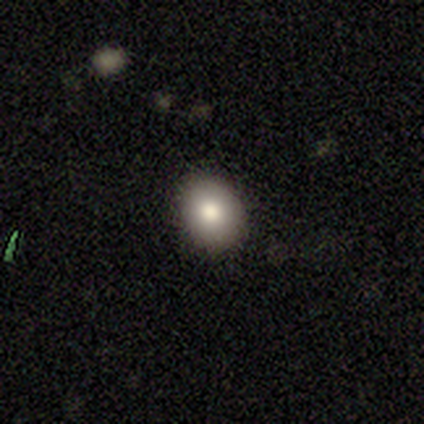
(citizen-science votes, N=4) Smooth or featured: smooth — 100%
How rounded: in between — 100%
Merging: none — 100%